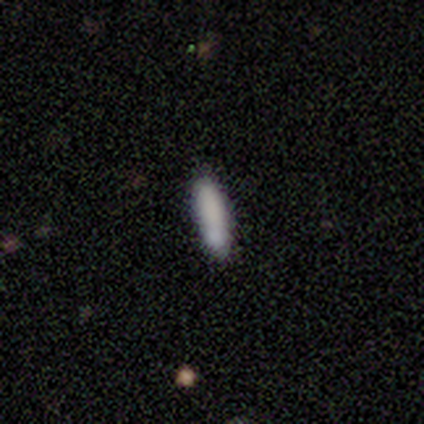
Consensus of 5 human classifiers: smooth 100%, featured or disk 0%, star or artifact 0%. Down the decision tree: how rounded — in between (60%); merging — none (80%).